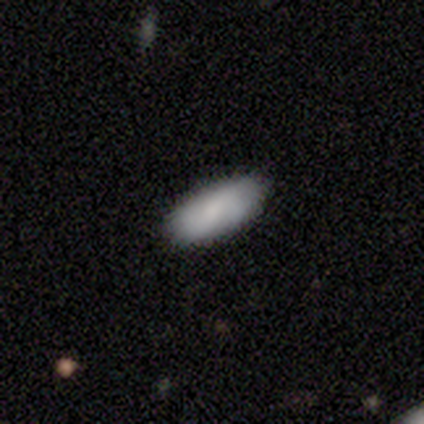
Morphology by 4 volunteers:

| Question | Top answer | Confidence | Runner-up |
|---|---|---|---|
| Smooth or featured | smooth | 100% | — |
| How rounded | in between | 100% | — |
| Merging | none | 100% | — |